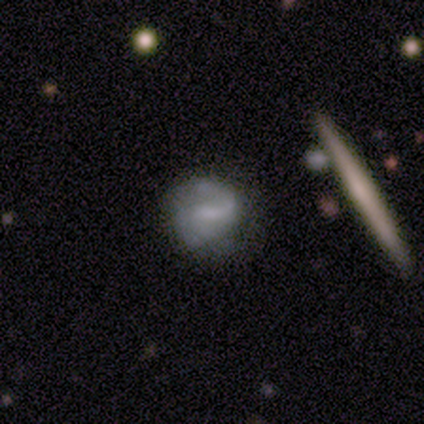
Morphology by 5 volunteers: Smooth or featured? 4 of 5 (80%) said featured or disk. Edge-on disk? 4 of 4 (100%) said no. Bar? 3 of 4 (75%) said weak. Spiral arms? 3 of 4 (75%) said yes. Spiral winding? 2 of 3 (67%) said medium. Spiral arm count? 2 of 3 (67%) said 2. Bulge size? 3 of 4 (75%) said small. Merging? 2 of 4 (50%, tied with minor disturbance) said none.